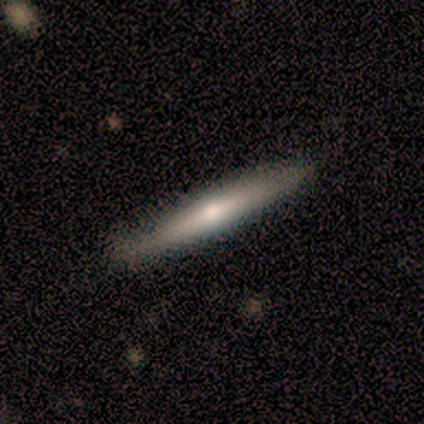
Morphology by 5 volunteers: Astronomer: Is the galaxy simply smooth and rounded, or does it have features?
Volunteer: featured or disk — 80%.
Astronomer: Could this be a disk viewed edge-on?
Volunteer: yes — 100%.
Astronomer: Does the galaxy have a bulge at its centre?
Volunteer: rounded — 100%.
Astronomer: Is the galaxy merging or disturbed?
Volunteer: none — 80%.